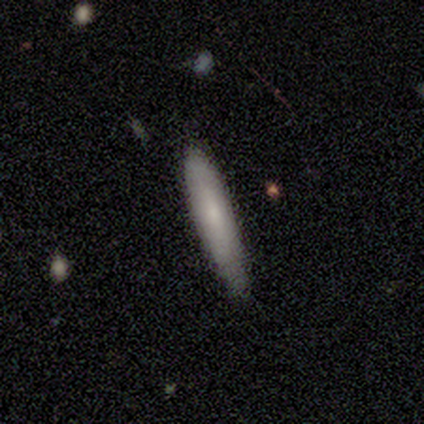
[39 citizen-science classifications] This is likely a smooth galaxy (72%). How rounded: clearly cigar-shaped (93%). Merging: likely none (76%).